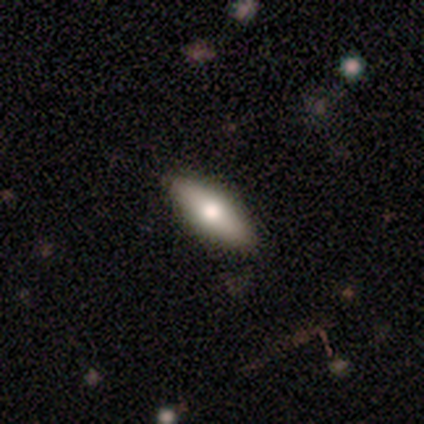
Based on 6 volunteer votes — Volunteers were most divided on "smooth or featured" (2-way tie): smooth: 50%, featured or disk: 50%, star or artifact: 0%. More confident: merging — none (100%); how rounded — in between (67%).